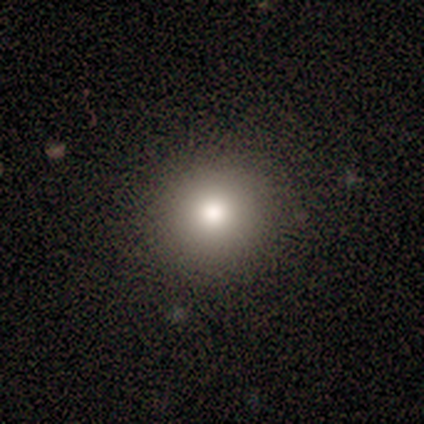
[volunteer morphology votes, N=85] Smooth or featured? 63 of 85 (74%) said smooth. How rounded? 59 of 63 (94%) said round. Merging? 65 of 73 (89%) said none.